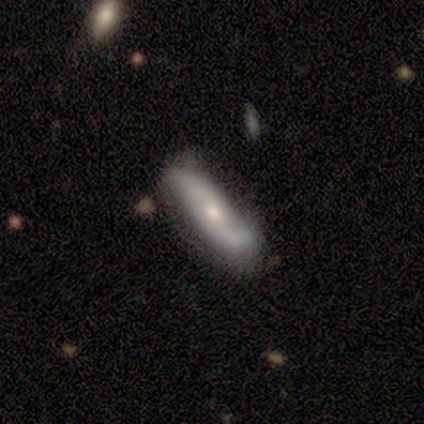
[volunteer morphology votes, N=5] smooth_or_featured: featured or disk (p=0.80) [alt: smooth p=0.20]
disk_edge_on: yes (p=0.50) [tied with: no p=0.50]
edge_on_bulge: none (p=0.50) [tied with: rounded p=0.50]
merging: none (p=0.60) [alt: minor disturbance p=0.40]